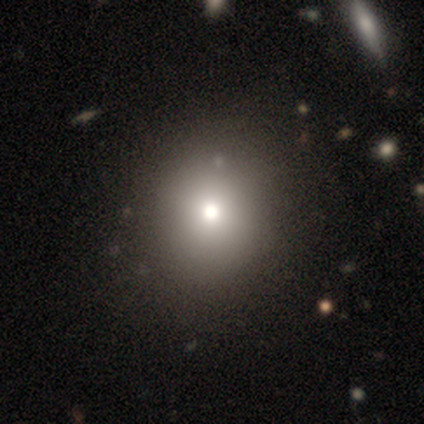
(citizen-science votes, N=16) Volunteers were most divided on "smooth or featured": smooth: 75%, star or artifact: 25%, featured or disk: 0%. More confident: how rounded — round (92%); merging — none (58%).